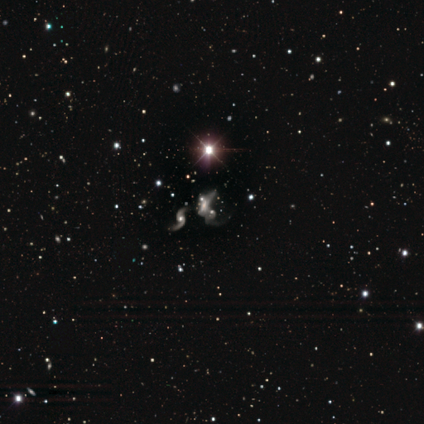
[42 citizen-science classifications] Q: Smooth or featured?
A: featured or disk (57%); runner-up: star or artifact (26%)
Q: Edge-on disk?
A: no (96%); runner-up: yes (4%)
Q: Bar?
A: no (83%); runner-up: weak (13%)
Q: Spiral arms?
A: yes (70%); runner-up: no (30%)
Q: Spiral winding?
A: loose (88%); runner-up: medium (12%)
Q: Spiral arm count?
A: 2 (56%); runner-up: can't tell (44%)
Q: Bulge size?
A: moderate (43%); runner-up: small (22%)
Q: Merging?
A: merger (65%); runner-up: major disturbance (23%)